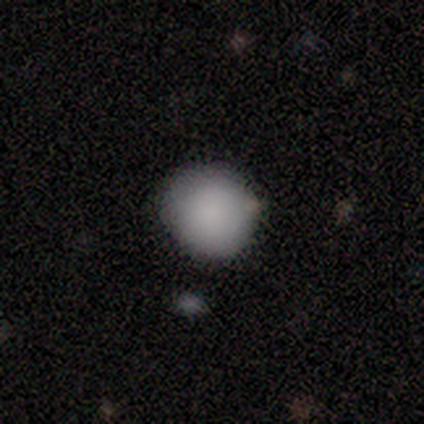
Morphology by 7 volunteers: smooth-or-featured: smooth: 100% | featured or disk: 0% | star or artifact: 0%
  how-rounded: round: 100% | in between: 0% | cigar-shaped: 0%
  merging: none: 100% | minor disturbance: 0% | major disturbance: 0% | merger: 0%